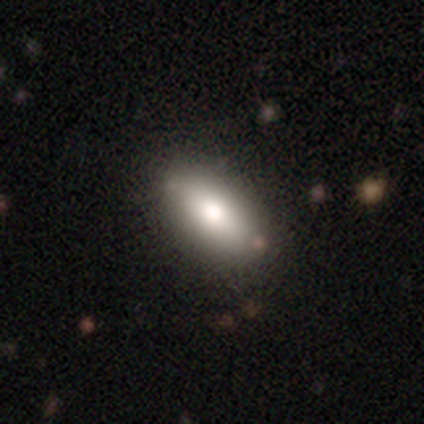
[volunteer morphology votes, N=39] Smooth or featured: smooth — 82% (featured or disk — 13%)
How rounded: in between — 84% (round — 9%)
Merging: none — 89% (minor disturbance — 5%)